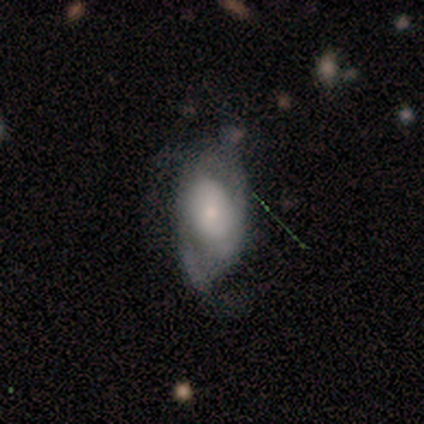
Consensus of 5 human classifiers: Smooth or featured: featured or disk — 80% (smooth — 20%)
Edge-on disk: no — 100%
Bar: no — 100%
Spiral arms: yes — 50% (tied with no — 50%)
Spiral winding: medium — 50% (tied with loose — 50%)
Spiral arm count: 1 — 50% (tied with 2 — 50%)
Bulge size: large — 50% (tied with small — 50%)
Merging: minor disturbance — 60% (none — 20%)